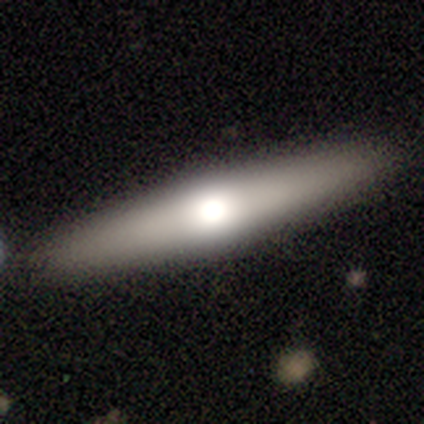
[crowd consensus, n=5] A featured or disk galaxy (60%) viewed edge-on (100%) with a rounded central bulge (100%).

Vote fractions:
- Smooth or featured? featured or disk: 60% / smooth: 40% / star or artifact: 0%
- Edge-on disk? yes: 100% / no: 0%
- Edge-on bulge? rounded: 100% / boxy: 0% / none: 0%
- Merging? none: 80% / minor disturbance: 20% / major disturbance: 0% / merger: 0%